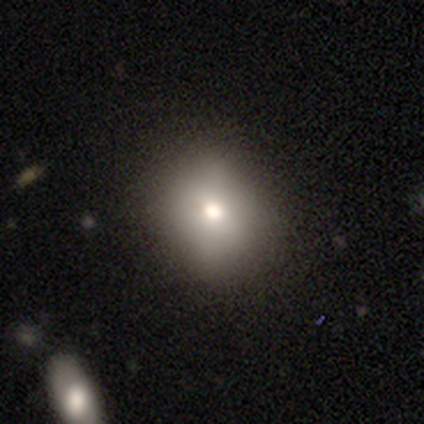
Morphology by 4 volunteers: type=smooth (100%); roundness=round (50%); merging=none (100%).